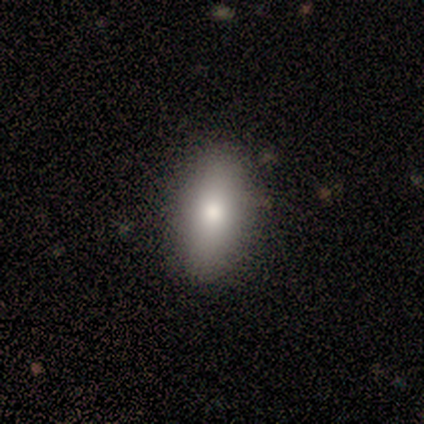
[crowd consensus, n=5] This is clearly a smooth galaxy (80%). How rounded: likely in between (75%). Merging: clearly none (100%).